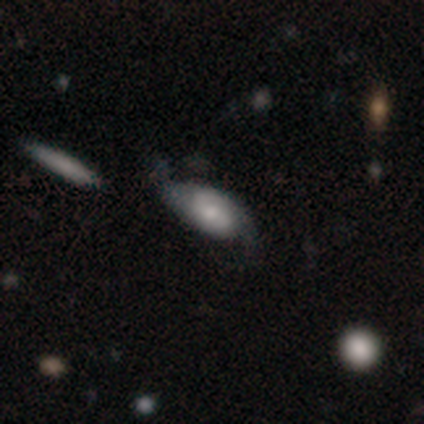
smooth 50% (tied), featured or disk 50% (tied), star or artifact 0%. Down the decision tree: how rounded — in between (80%); merging — none (90%).